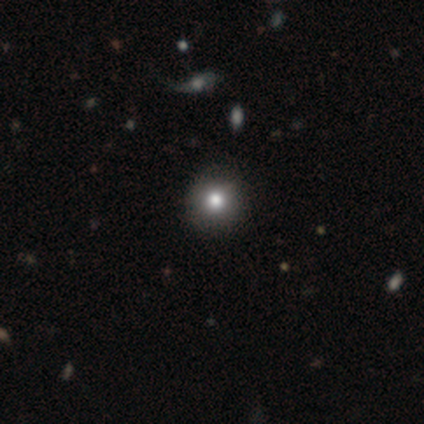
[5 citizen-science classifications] A smooth galaxy with no disk features (60%) that is round (100%). Merging: none (100%).